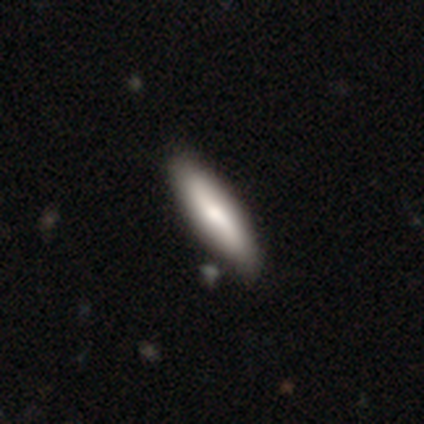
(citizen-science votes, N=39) Q: Smooth or featured?
A: smooth (69%); runner-up: featured or disk (28%)
Q: How rounded?
A: cigar-shaped (81%); runner-up: in between (19%)
Q: Merging?
A: none (58%); runner-up: minor disturbance (11%)